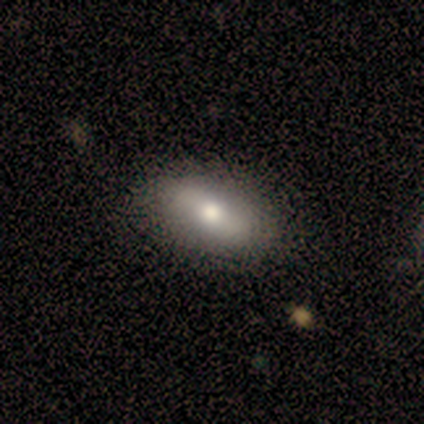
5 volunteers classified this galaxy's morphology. smooth-or-featured: smooth: 80% | featured or disk: 20% | star or artifact: 0%
  how-rounded: in between: 100% | round: 0% | cigar-shaped: 0%
  merging: none: 80% | merger: 20% | minor disturbance: 0% | major disturbance: 0%